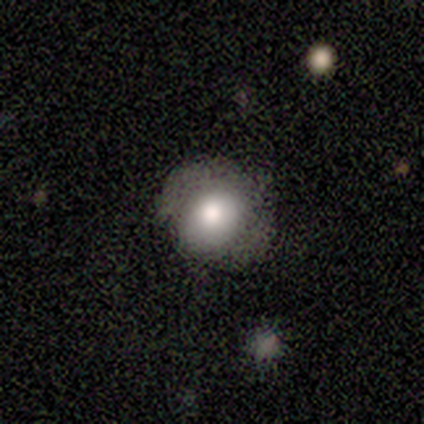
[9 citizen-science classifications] smooth 78%, featured or disk 11%, star or artifact 11%. Down the decision tree: how rounded — round (57%); merging — minor disturbance (62%).